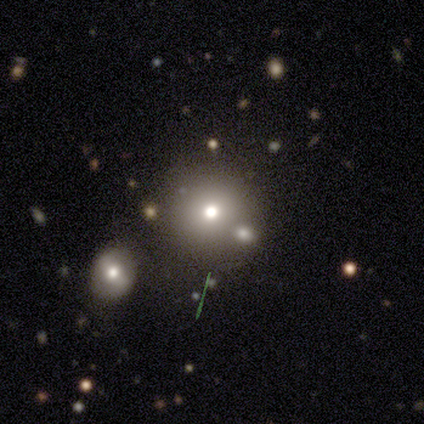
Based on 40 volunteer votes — This appears to be a smooth galaxy with no disk features (72%) that is round (97%). Merging: none (64%).